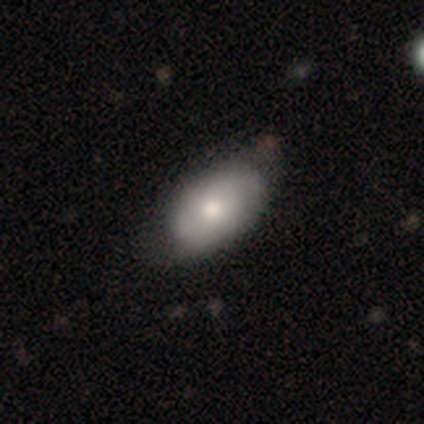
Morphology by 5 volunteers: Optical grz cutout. It shows a featured or disk galaxy (60%) with no bar (67%), no spiral arms (100%) and a moderate central bulge (100%). Merging: none (50%, tied with minor disturbance).